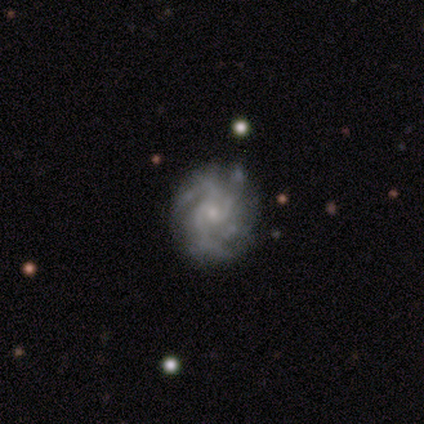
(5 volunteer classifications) Volunteers were most divided on "spiral arm count": more than 4: 60%, 3: 20%, 4: 20%, 1: 0%, 2: 0%, can't tell: 0%. More confident: smooth or featured — featured or disk (100%); edge-on disk — no (100%); spiral arms — yes (100%); bar — no (80%); spiral winding — tight (80%); merging — none (80%); bulge size — small (60%).